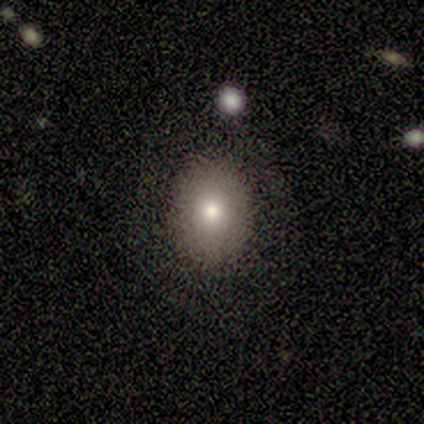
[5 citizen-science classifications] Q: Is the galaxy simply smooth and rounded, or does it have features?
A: smooth — 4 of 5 (80%).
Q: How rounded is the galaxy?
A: round — 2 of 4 (50%, tied with in between).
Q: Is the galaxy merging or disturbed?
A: none — 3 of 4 (75%).